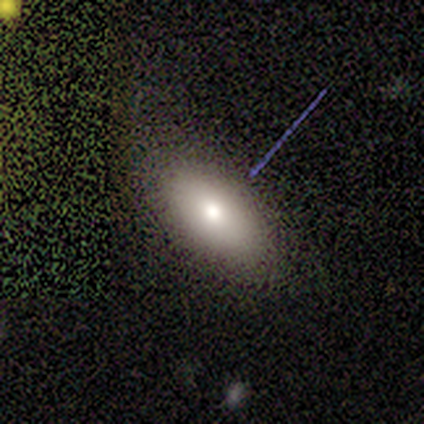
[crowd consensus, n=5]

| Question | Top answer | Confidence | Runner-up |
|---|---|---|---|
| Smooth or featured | featured or disk | 60% | smooth (20%) |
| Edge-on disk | yes | 67% | no (33%) |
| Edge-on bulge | boxy | 50% | tied: rounded (50%) |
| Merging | none | 75% | minor disturbance (25%) |